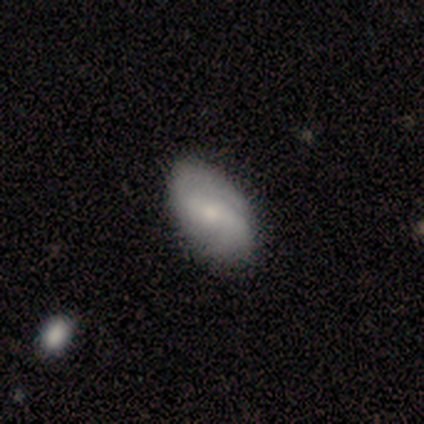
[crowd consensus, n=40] Q: Smooth or featured?
A: featured or disk (75%); runner-up: smooth (22%)
Q: Edge-on disk?
A: no (100%)
Q: Bar?
A: weak (53%); runner-up: no (30%)
Q: Spiral arms?
A: yes (80%); runner-up: no (20%)
Q: Spiral winding?
A: tight (38%); runner-up: loose (33%)
Q: Spiral arm count?
A: 2 (67%); runner-up: can't tell (17%)
Q: Bulge size?
A: small (53%); runner-up: moderate (33%)
Q: Merging?
A: none (69%); runner-up: merger (5%)